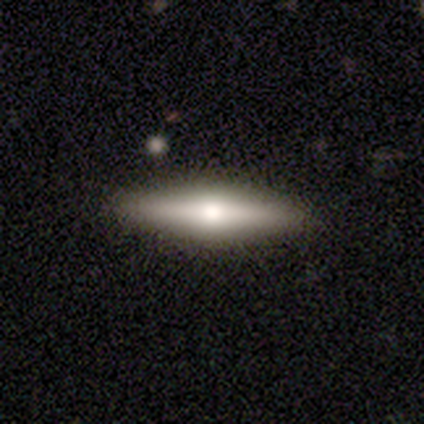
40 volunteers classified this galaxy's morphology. smooth_or_featured: featured or disk (p=0.60) [alt: smooth p=0.40]
disk_edge_on: yes (p=1.00)
edge_on_bulge: rounded (p=0.92) [alt: none p=0.08]
merging: none (p=0.55) [alt: minor disturbance p=0.05]